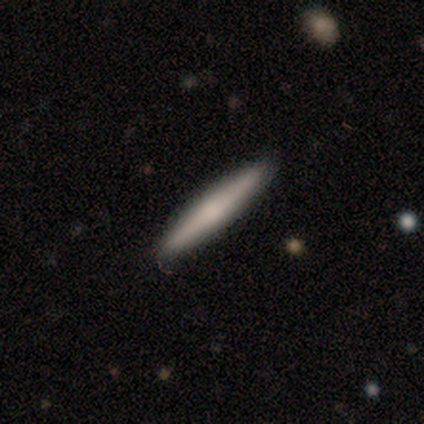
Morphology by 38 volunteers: Volunteers were most divided on "smooth or featured": smooth: 53%, featured or disk: 47%, star or artifact: 0%. More confident: how rounded — cigar-shaped (95%); merging — none (89%).